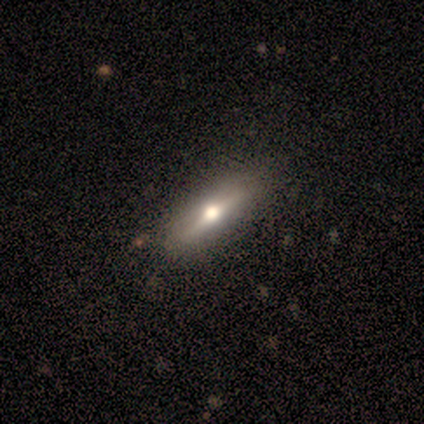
Volunteers were most divided on "smooth or featured": featured or disk: 86%, smooth: 14%, star or artifact: 0%. More confident: edge-on disk — yes (100%); edge-on bulge — rounded (100%); merging — none (100%).